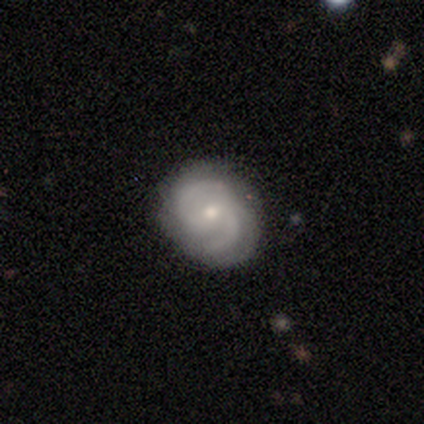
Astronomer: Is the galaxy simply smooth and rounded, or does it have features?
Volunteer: featured or disk — 100%.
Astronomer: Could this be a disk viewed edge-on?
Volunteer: no — 80%.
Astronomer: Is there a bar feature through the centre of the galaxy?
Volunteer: no — 75%.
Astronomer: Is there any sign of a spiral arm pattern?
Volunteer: yes — 100%.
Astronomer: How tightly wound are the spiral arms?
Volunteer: medium — 75%.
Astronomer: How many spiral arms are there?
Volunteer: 2 — 75%.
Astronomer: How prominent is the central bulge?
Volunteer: small — 75%.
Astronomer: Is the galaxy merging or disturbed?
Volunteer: none — 100%.